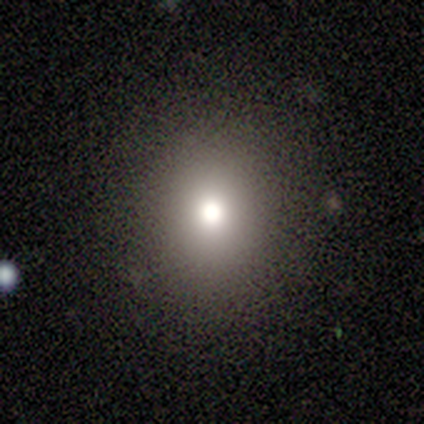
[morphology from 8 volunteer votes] smooth 62%, featured or disk 25%, star or artifact 12%. Down the decision tree: how rounded — round (80%); merging — none (100%).